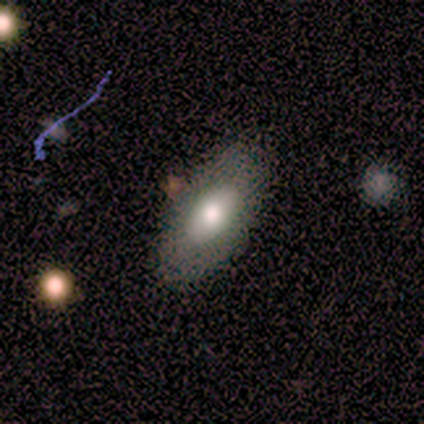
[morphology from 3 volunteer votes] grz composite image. It shows a smooth galaxy with no disk features (67%) that is in between round and cigar-shaped (100%). Merging: none (100%).